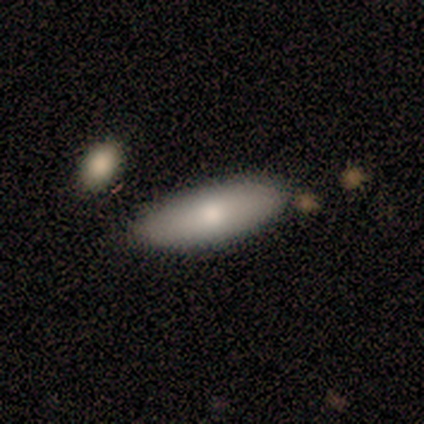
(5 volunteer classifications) A smooth galaxy with no disk features (80%) that is in between round and cigar-shaped (100%).

Vote fractions:
- Smooth or featured? smooth: 80% / featured or disk: 20% / star or artifact: 0%
- How rounded? in between: 100% / round: 0% / cigar-shaped: 0%
- Merging? none: 100% / minor disturbance: 0% / major disturbance: 0% / merger: 0%